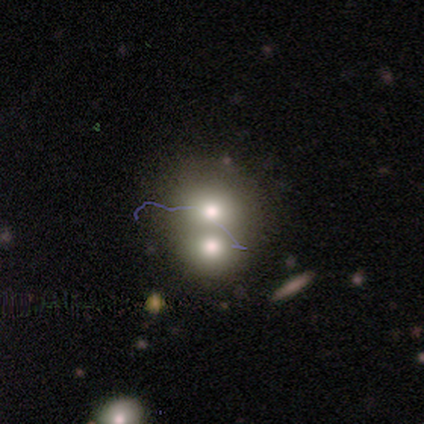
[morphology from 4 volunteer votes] This is likely a smooth galaxy (75%). How rounded: likely round (67%). Merging: likely merger (67%).